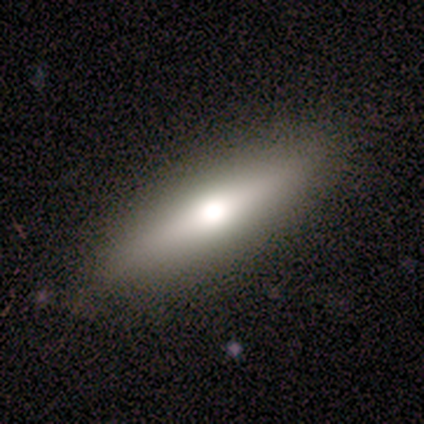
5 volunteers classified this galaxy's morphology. Smooth or featured? featured or disk (60%)
Edge-on disk? yes (100%)
Edge-on bulge? rounded (100%)
Merging? none (100%)